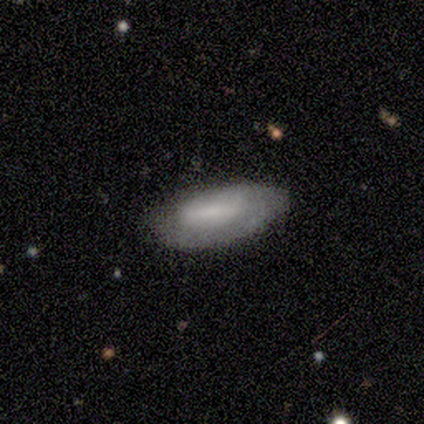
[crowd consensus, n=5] A smooth galaxy with no disk features (80%) that is in between round and cigar-shaped (100%). Merging: none (80%).